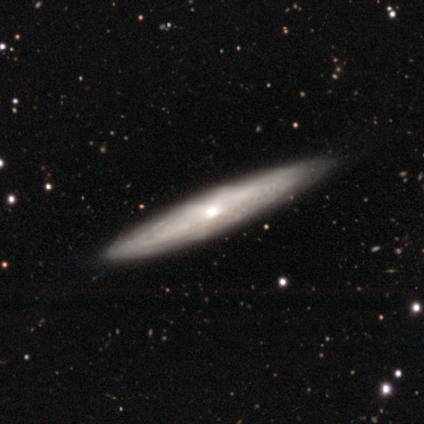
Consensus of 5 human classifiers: This is likely a featured or disk galaxy (60%). It is likely viewed edge-on (67%). Edge-on bulge: clearly rounded (100%). Merging: clearly none (100%).